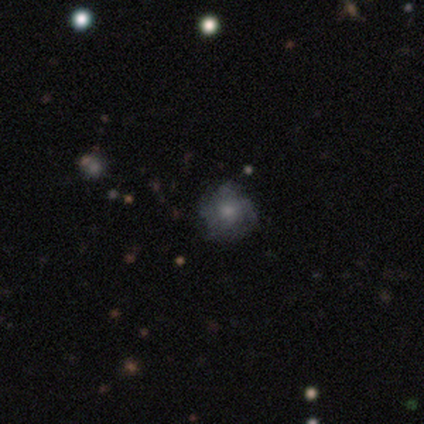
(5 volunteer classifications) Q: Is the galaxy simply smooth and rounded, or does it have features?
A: smooth — 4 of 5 (80%).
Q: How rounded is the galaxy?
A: round — 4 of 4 (100%).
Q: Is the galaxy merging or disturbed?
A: none — 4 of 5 (80%).